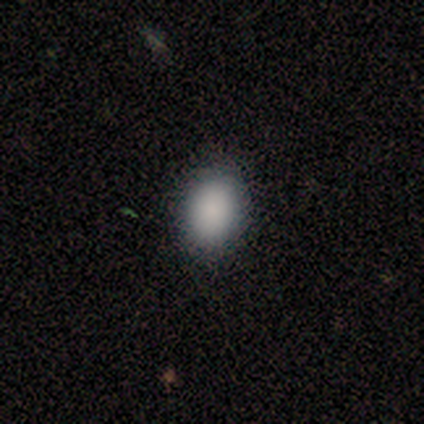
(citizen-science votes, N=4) Morphology: type=smooth (100%); roundness=in between (100%); merging=none (100%).